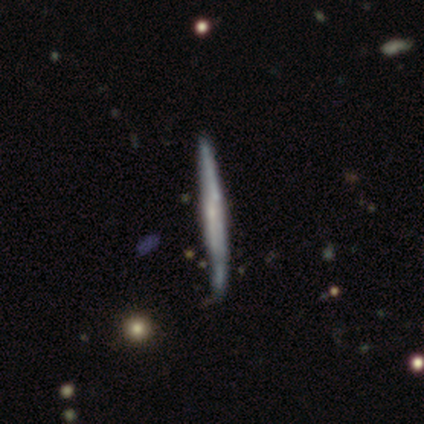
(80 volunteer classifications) Smooth or featured?
  - featured or disk: 69% *
  - smooth: 29%
  - star or artifact: 2%
Edge-on disk?
  - yes: 98% *
  - no: 2%
Edge-on bulge?
  - none: 61% *
  - rounded: 24%
  - boxy: 15%
Merging?
  - none: 32% *
  - minor disturbance: 13%
  - merger: 5%
  - major disturbance: 4%